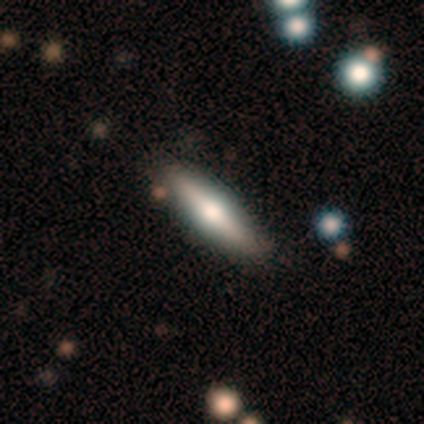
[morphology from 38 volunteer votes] Smooth or featured: featured or disk — 55% (smooth — 39%)
Edge-on disk: yes — 100%
Edge-on bulge: rounded — 100%
Merging: none — 83% (minor disturbance — 8%)